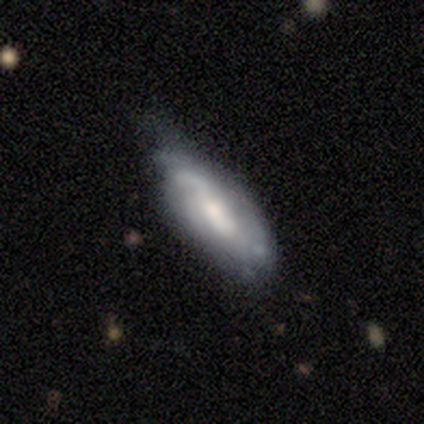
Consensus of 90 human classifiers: Overall: featured or disk (59%; smooth 36%). Edge-on disk: no (91%). Bar: no (44%; weak 40%). Spiral arms: yes (85%). Spiral arm count: can't tell (51%; 1 20%). Spiral winding: tight (34%, tied with medium). Bulge size: moderate (44%; small 40%). Merging: none (52%; minor disturbance 33%).